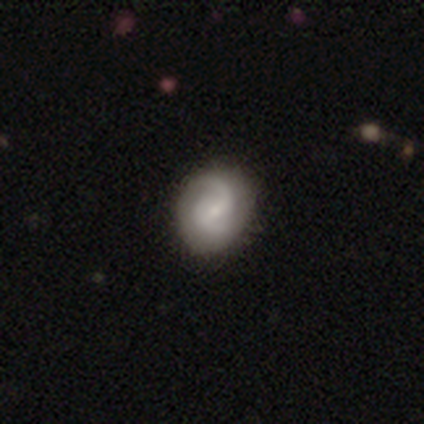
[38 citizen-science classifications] A featured or disk galaxy (89%) with a weak bar (56%), 2 (84%) medium (48%) spiral arms (91%) and a small central bulge (62%).

Vote fractions:
- Smooth or featured? featured or disk: 89% / smooth: 8% / star or artifact: 3%
- Edge-on disk? no: 100% / yes: 0%
- Bar? weak: 56% / no: 44% / strong: 0%
- Spiral arms? yes: 91% / no: 9%
- Spiral winding? medium: 48% / loose: 29% / tight: 23%
- Spiral arm count? 2: 84% / 1: 10% / can't tell: 6% / 3: 0% / 4: 0% / more than 4: 0%
- Bulge size? small: 62% / moderate: 29% / none: 6% / large: 3% / dominant: 0%
- Merging? none: 38% / minor disturbance: 22% / major disturbance: 3% / merger: 0%